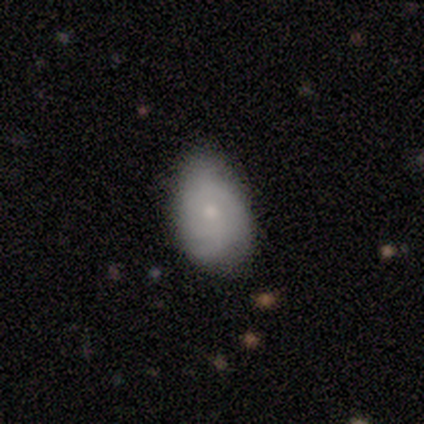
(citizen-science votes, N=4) This is likely a smooth galaxy (75%). How rounded: clearly in between (100%). Merging: possibly none (50%).